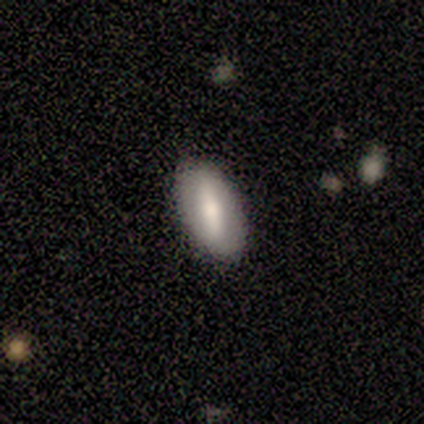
smooth_or_featured: featured or disk (p=1.00)
disk_edge_on: yes (p=0.50) [tied with: no p=0.50]
edge_on_bulge: rounded (p=1.00)
merging: none (p=1.00)